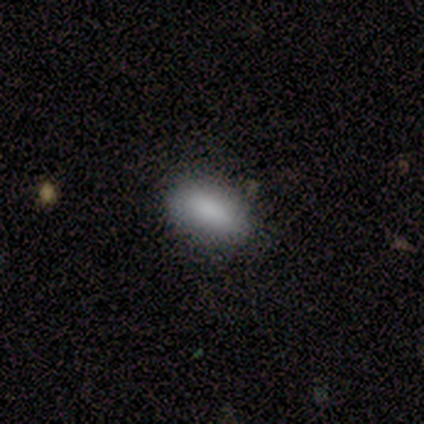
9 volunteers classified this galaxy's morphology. smooth_or_featured: smooth (p=1.00)
how_rounded: in between (p=1.00)
merging: none (p=0.67) [alt: minor disturbance p=0.33]